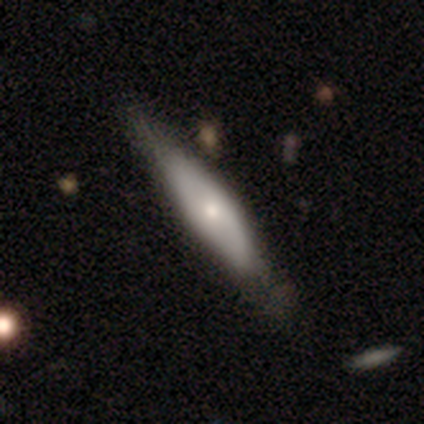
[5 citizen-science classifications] This appears to be a featured or disk galaxy (60%) viewed edge-on (67%) with a rounded central bulge (100%). Merging: none (80%).